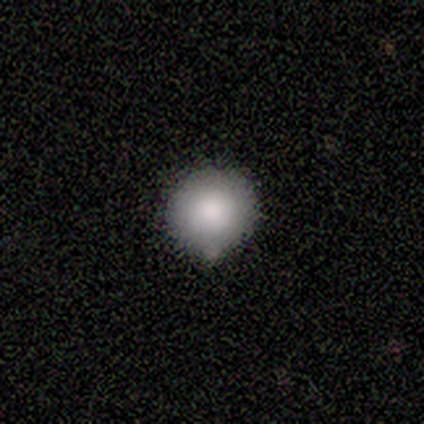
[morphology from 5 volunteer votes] Smooth or featured? 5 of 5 (100%) said smooth. How rounded? 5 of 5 (100%) said round. Merging? 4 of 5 (80%) said none.